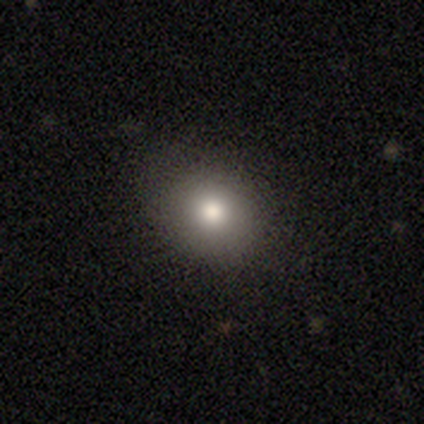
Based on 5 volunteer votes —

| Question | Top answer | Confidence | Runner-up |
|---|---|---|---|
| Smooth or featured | smooth | 60% | featured or disk (20%) |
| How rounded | round | 100% | — |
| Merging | none | 75% | major disturbance (25%) |